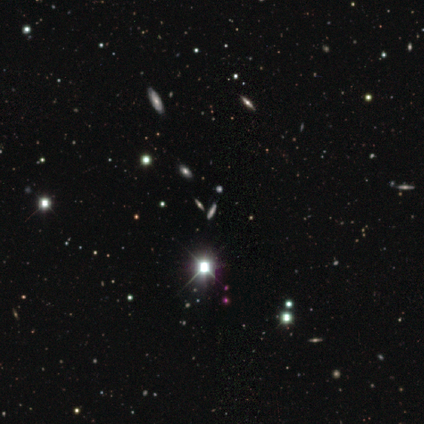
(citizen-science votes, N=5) This is clearly a star or artifact rather than a galaxy (100%).